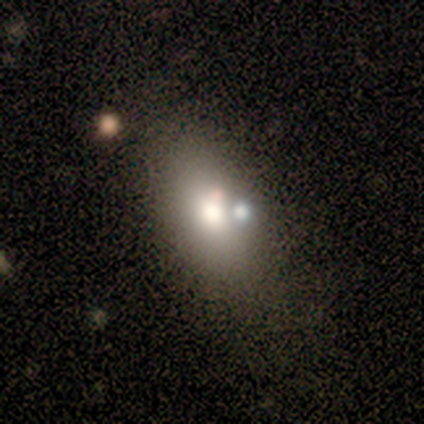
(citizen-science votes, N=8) A smooth galaxy with no disk features (88%) that is in between round and cigar-shaped (86%).

Vote fractions:
- Smooth or featured? smooth: 88% / featured or disk: 12% / star or artifact: 0%
- How rounded? in between: 86% / round: 14% / cigar-shaped: 0%
- Merging? none: 62% / merger: 38% / minor disturbance: 0% / major disturbance: 0%